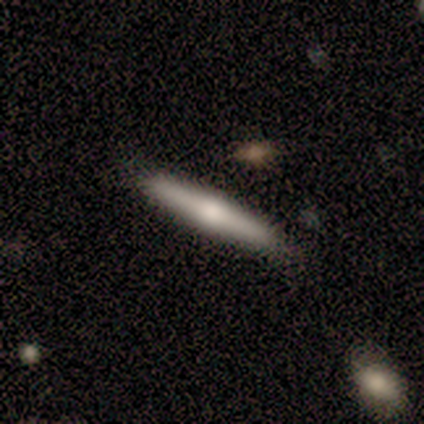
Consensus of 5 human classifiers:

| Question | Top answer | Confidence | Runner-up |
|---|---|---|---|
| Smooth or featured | smooth | 60% | featured or disk (40%) |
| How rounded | cigar-shaped | 100% | — |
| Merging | none | 100% | — |